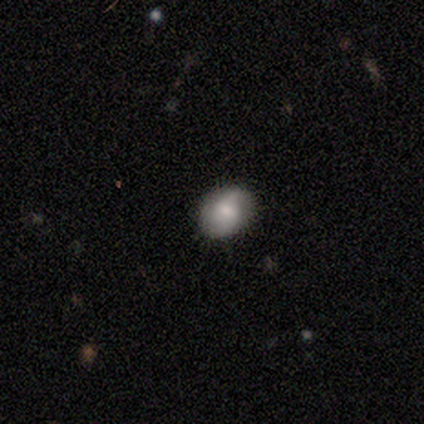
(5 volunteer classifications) Smooth or featured? featured or disk (80%)
Edge-on disk? no (100%)
Bar? weak (50%)
Spiral arms? yes (100%)
Spiral winding? tight (50%)
Spiral arm count? 2 (50%, tied with can't tell)
Bulge size? moderate (75%)
Merging? none (100%)